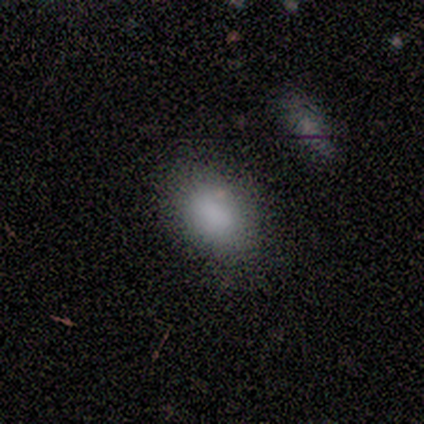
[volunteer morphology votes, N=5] type=smooth (80%); roundness=in between (100%); merging=none (100%).